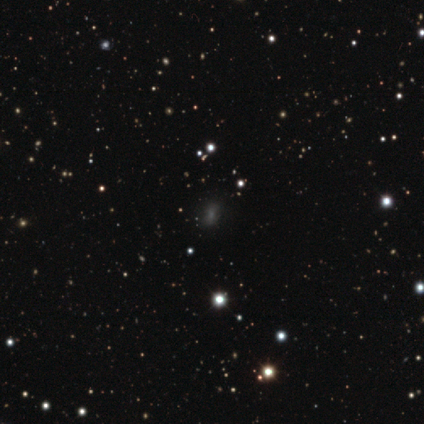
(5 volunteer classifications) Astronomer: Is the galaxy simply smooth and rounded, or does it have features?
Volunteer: smooth — 80%.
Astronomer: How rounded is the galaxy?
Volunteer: in between — 100%.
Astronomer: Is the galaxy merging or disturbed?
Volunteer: none — 100%.